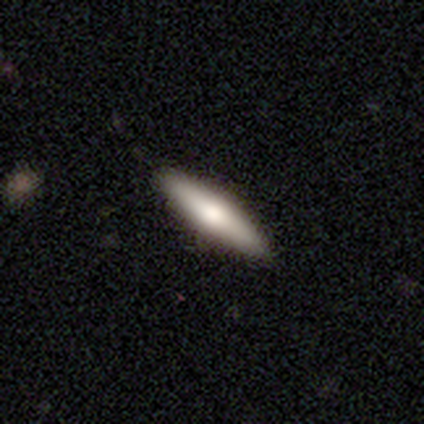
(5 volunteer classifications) Smooth or featured?
  - smooth: 80% *
  - featured or disk: 20%
  - star or artifact: 0%
How rounded?
  - in between: 50% * (tied)
  - cigar-shaped: 50% * (tied)
  - round: 0%
Merging?
  - none: 100% *
  - minor disturbance: 0%
  - major disturbance: 0%
  - merger: 0%